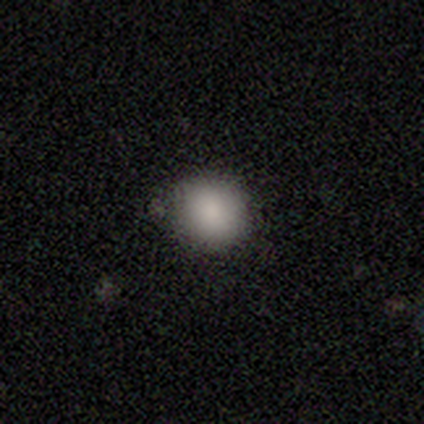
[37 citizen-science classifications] smooth-or-featured: smooth: 95% | featured or disk: 5% | star or artifact: 0%
  how-rounded: round: 91% | in between: 9% | cigar-shaped: 0%
  merging: none: 81% | minor disturbance: 11% | major disturbance: 8% | merger: 0%